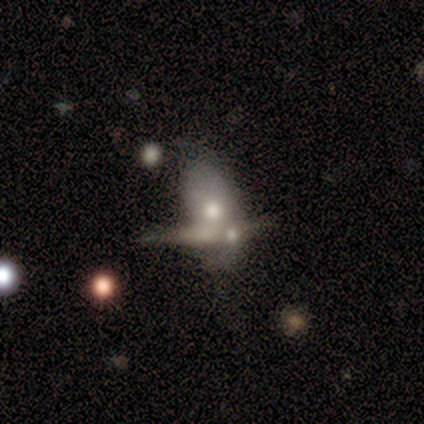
Volunteers were most divided on "bar": no: 75%, weak: 25%, strong: 0%. More confident: edge-on disk — no (100%); spiral arms — no (100%); smooth or featured — featured or disk (80%); merging — merger (80%); bulge size — moderate (75%).